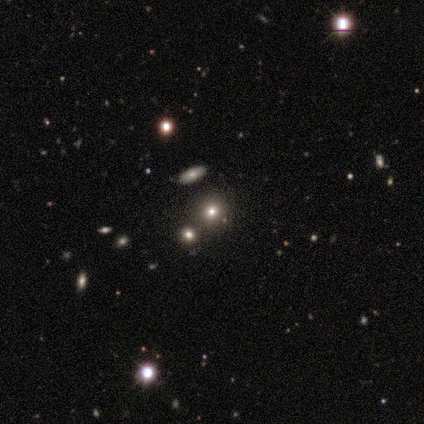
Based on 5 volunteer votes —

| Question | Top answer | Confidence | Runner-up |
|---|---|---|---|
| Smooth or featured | smooth | 60% | featured or disk (20%) |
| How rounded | round | 100% | — |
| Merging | none | 75% | merger (25%) |